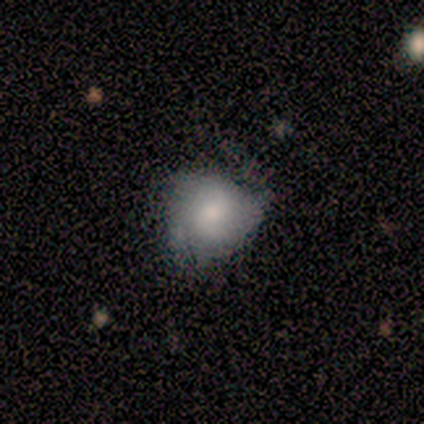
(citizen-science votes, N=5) Smooth or featured? 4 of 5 (80%) said smooth. How rounded? 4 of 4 (100%) said round. Merging? 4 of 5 (80%) said none.